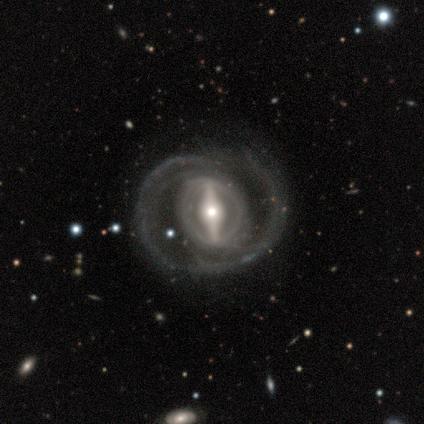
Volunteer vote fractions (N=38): A featured or disk galaxy (92%) with a strong bar (91%), 2 (69%) medium (41%) spiral arms (88%) and a moderate central bulge (67%).

Vote fractions:
- Smooth or featured? featured or disk: 92% / smooth: 5% / star or artifact: 3%
- Edge-on disk? no: 94% / yes: 6%
- Bar? strong: 91% / weak: 6% / no: 3%
- Spiral arms? yes: 88% / no: 12%
- Spiral winding? medium: 41% / tight: 38% / loose: 21%
- Spiral arm count? 2: 69% / can't tell: 14% / 1: 10% / 4: 3% / more than 4: 3% / 3: 0%
- Bulge size? moderate: 67% / small: 21% / large: 9% / dominant: 3% / none: 0%
- Merging? none: 65% / major disturbance: 24% / minor disturbance: 11% / merger: 0%